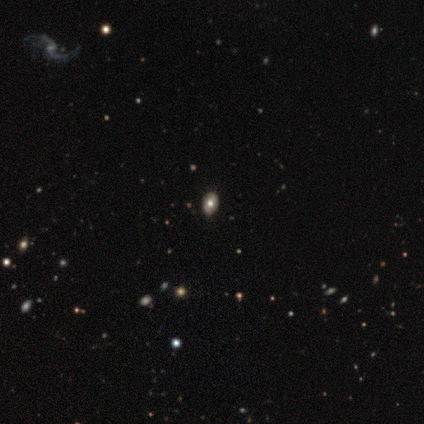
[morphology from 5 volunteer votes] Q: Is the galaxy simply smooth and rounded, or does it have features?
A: smooth — 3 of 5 (60%).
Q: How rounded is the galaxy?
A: in between — 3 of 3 (100%).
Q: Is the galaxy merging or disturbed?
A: none — 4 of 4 (100%).